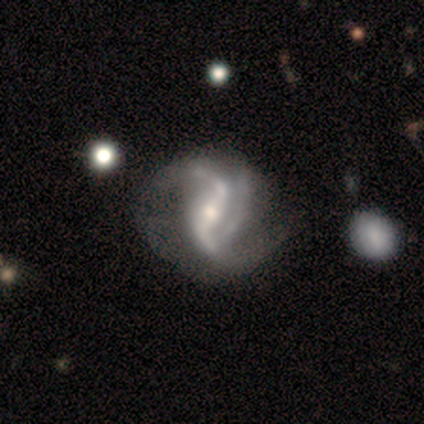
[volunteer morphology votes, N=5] A featured or disk galaxy (80%) with a strong bar (75%), 2 (50%) medium (50%, tied with loose) spiral arms (100%) and a small central bulge (50%). Merging: minor disturbance (50%).